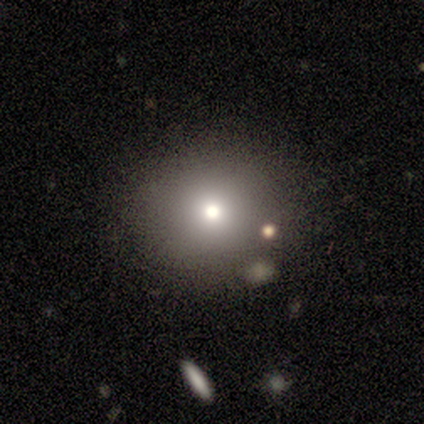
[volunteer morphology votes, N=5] smooth_or_featured: smooth (p=1.00)
how_rounded: round (p=1.00)
merging: none (p=0.80) [alt: minor disturbance p=0.20]